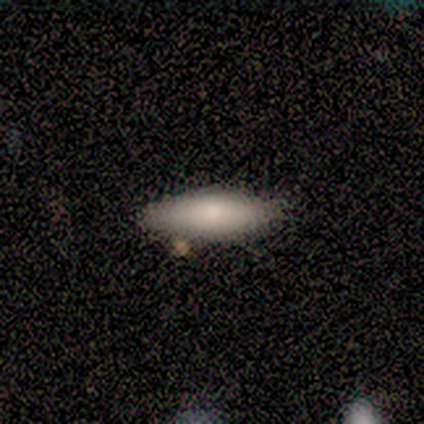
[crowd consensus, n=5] smooth_or_featured: smooth (p=0.80) [alt: featured or disk p=0.20]
how_rounded: in between (p=0.50) [tied with: cigar-shaped p=0.50]
merging: none (p=0.80) [alt: merger p=0.20]